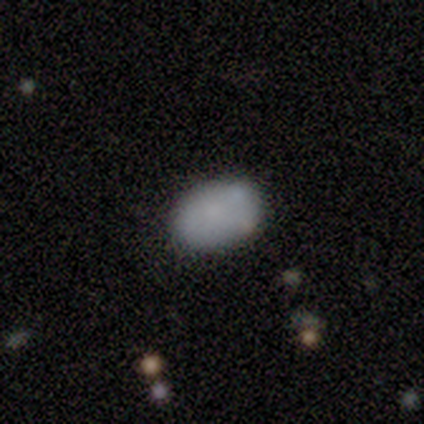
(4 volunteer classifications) Smooth or featured: smooth — 75% (star or artifact — 25%)
How rounded: in between — 67% (round — 33%)
Merging: none — 100%